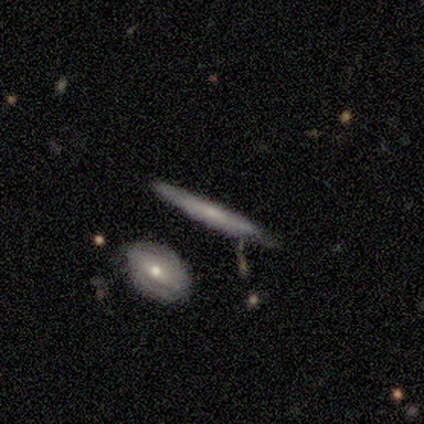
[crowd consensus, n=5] Smooth or featured? featured or disk (100%)
Edge-on disk? yes (80%)
Edge-on bulge? none (50%)
Merging? merger (60%)